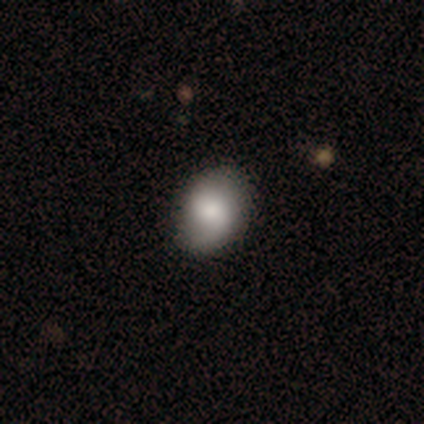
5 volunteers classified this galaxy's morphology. A smooth galaxy with no disk features (60%) that is round (67%). Merging: none (80%).